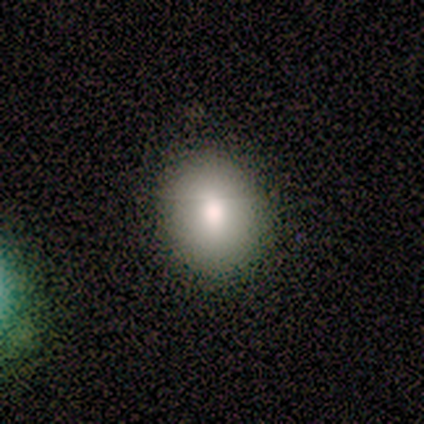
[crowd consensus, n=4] Volunteers were most divided on "smooth or featured" (2-way tie): smooth: 50%, featured or disk: 50%, star or artifact: 0%; "how rounded" (2-way tie): round: 50%, in between: 50%, cigar-shaped: 0%. More confident: merging — none (75%).